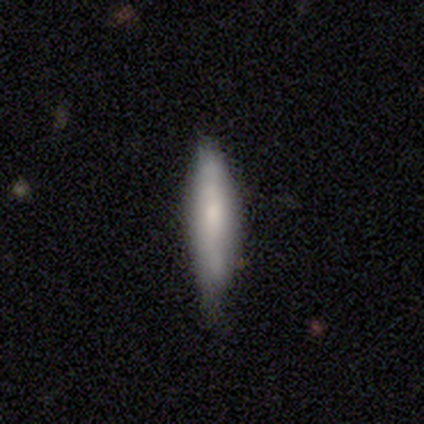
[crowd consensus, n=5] Overall: smooth (100%). How rounded: cigar-shaped (60%; in between 40%). Merging: none (60%; minor disturbance 40%).